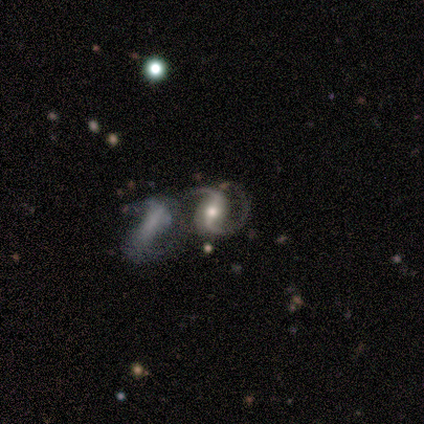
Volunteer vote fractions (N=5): This appears to be a featured or disk galaxy (100%) with a strong bar (60%), 2 (100%) medium (80%) spiral arms (100%) and a moderate central bulge (80%). Merging: merger (60%).